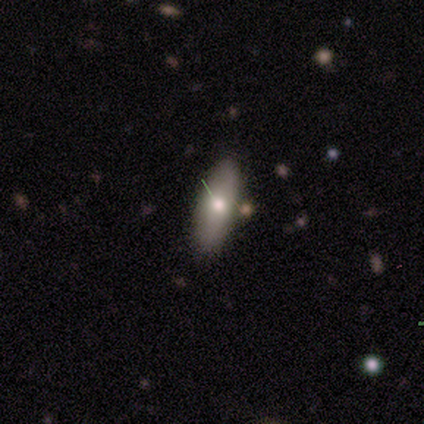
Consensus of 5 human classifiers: Smooth or featured?
  - featured or disk: 60% *
  - smooth: 20%
  - star or artifact: 20%
Edge-on disk?
  - no: 67% *
  - yes: 33%
Bar?
  - no: 100% *
  - strong: 0%
  - weak: 0%
Spiral arms?
  - no: 100% *
  - yes: 0%
Bulge size?
  - moderate: 50% * (tied)
  - small: 50% * (tied)
  - dominant: 0%
  - large: 0%
  - none: 0%
Merging?
  - none: 100% *
  - minor disturbance: 0%
  - major disturbance: 0%
  - merger: 0%